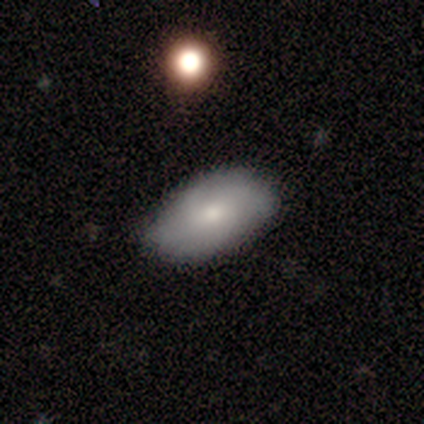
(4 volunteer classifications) smooth 75%, featured or disk 25%, star or artifact 0%. Down the decision tree: how rounded — in between (100%); merging — none (100%).